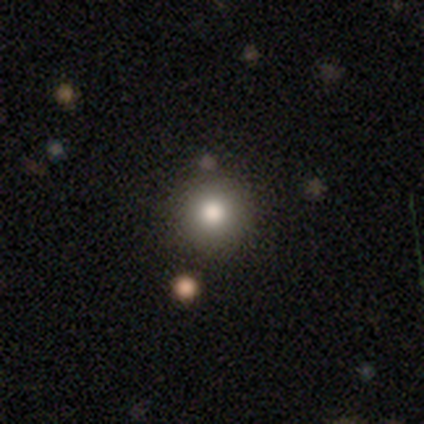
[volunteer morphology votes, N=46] Smooth or featured: smooth — 85% (featured or disk — 9%)
How rounded: round — 97% (in between — 3%)
Merging: none — 81% (minor disturbance — 9%)